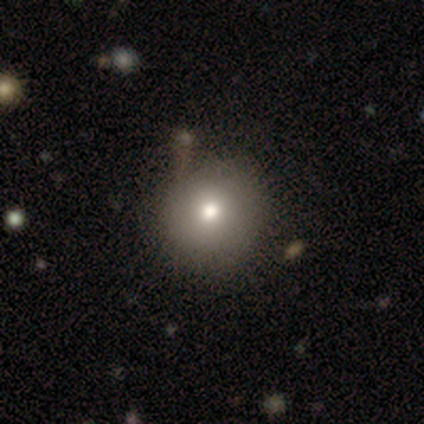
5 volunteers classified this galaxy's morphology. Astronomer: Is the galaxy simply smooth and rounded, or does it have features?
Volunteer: smooth — 40%, tied with star or artifact at 40%.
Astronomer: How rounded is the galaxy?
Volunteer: round — 100%.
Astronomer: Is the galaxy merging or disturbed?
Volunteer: none — 100%.